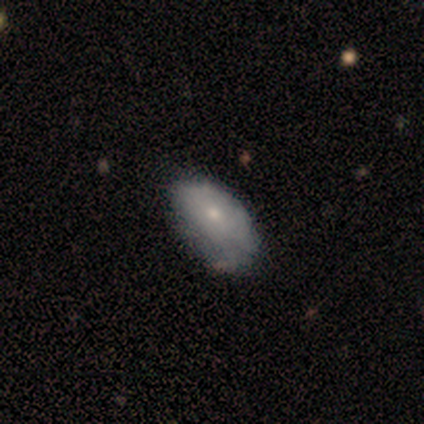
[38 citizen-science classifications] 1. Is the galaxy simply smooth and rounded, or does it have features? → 63% smooth, 34% featured or disk, 3% star or artifact.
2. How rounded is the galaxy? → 92% in between, 8% round, 0% cigar-shaped.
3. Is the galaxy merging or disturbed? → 27% none, 22% minor disturbance, 5% major disturbance, 5% merger.